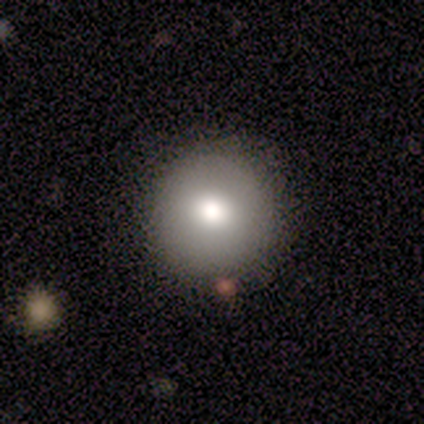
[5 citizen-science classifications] smooth 80%, featured or disk 20%, star or artifact 0%. Down the decision tree: how rounded — round (100%); merging — none (100%).